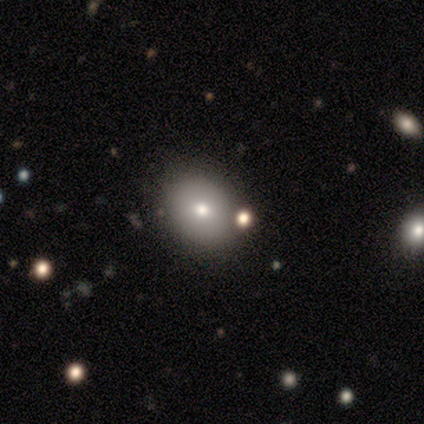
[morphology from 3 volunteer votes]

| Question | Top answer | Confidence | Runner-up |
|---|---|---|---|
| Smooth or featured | smooth | 67% | featured or disk (33%) |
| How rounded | in between | 100% | — |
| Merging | none | 67% | minor disturbance (33%) |